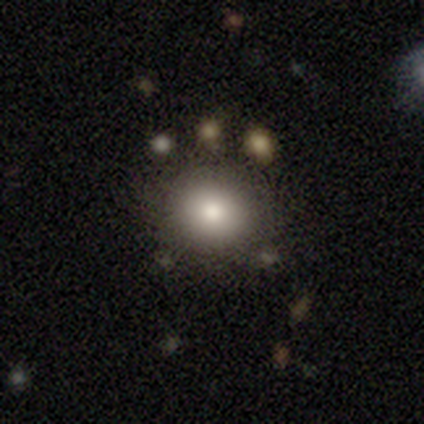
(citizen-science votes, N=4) A smooth galaxy with no disk features (100%) that is round (75%).

Vote fractions:
- Smooth or featured? smooth: 100% / featured or disk: 0% / star or artifact: 0%
- How rounded? round: 75% / in between: 25% / cigar-shaped: 0%
- Merging? none: 75% / merger: 25% / minor disturbance: 0% / major disturbance: 0%